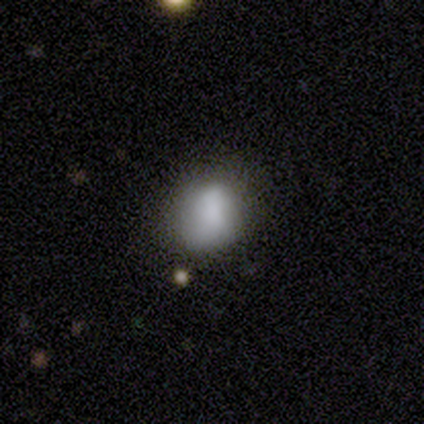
smooth 82%, featured or disk 10%, star or artifact 8%. Down the decision tree: how rounded — in between (56%); merging — none (53%).